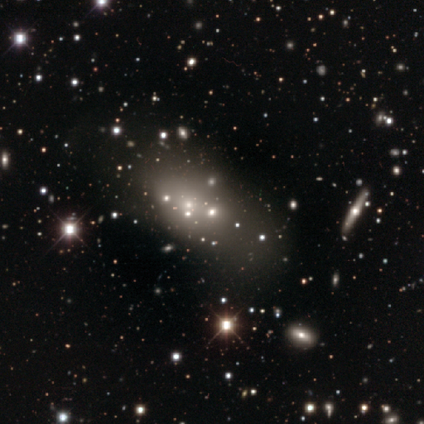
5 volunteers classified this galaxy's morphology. smooth_or_featured: featured or disk (p=0.40) [tied with: star or artifact p=0.40]
disk_edge_on: no (p=1.00)
bar: no (p=1.00)
has_spiral_arms: no (p=1.00)
bulge_size: none (p=1.00)
merging: none (p=0.67) [alt: major disturbance p=0.33]